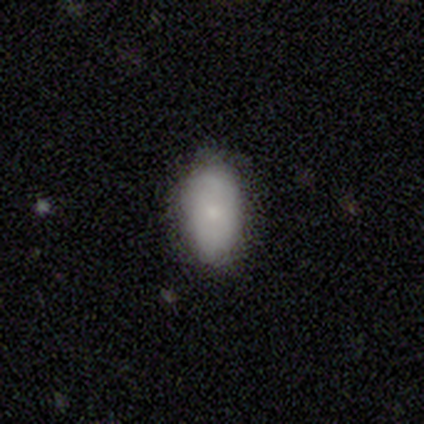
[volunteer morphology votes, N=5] Q: Smooth or featured?
A: smooth (80%); runner-up: featured or disk (20%)
Q: How rounded?
A: in between (100%)
Q: Merging?
A: none (100%)